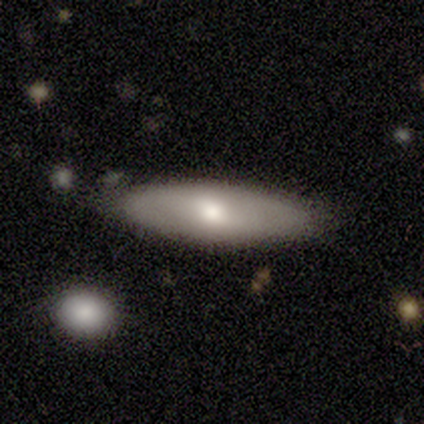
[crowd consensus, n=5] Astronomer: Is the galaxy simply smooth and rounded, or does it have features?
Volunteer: smooth — 60% (runner-up: featured or disk, 40%).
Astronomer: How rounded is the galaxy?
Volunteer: cigar-shaped — 67%.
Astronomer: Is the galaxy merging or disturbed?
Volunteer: none — 80%.